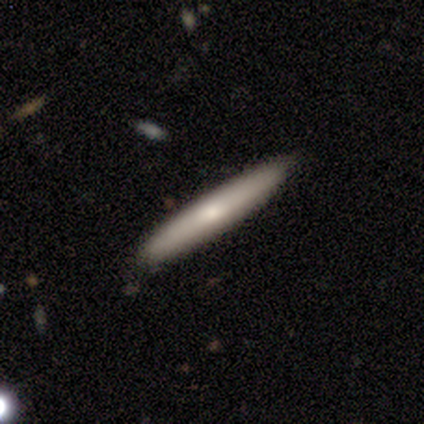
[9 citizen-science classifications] Smooth or featured? smooth (56%)
How rounded? cigar-shaped (100%)
Merging? none (100%)